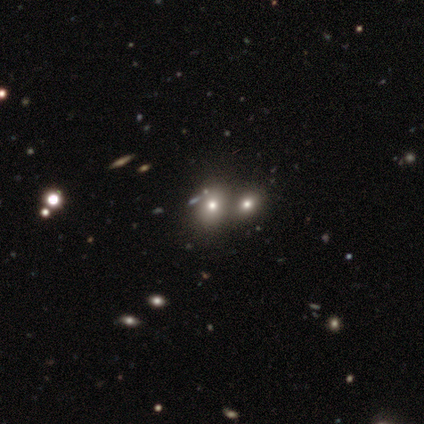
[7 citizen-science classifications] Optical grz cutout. It shows a smooth galaxy with no disk features (57%) that is round (50%, tied with in between). Merging: none (100%).